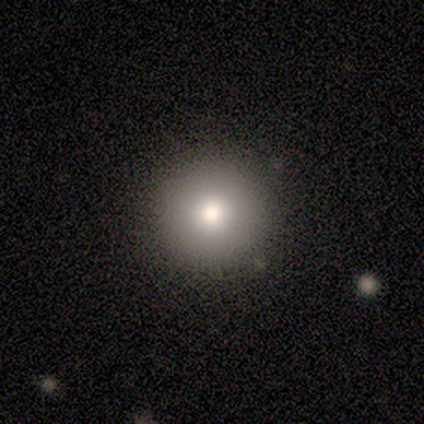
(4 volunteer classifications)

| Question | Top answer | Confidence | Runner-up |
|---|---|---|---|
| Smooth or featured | smooth | 75% | star or artifact (25%) |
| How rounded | round | 100% | — |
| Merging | none | 100% | — |